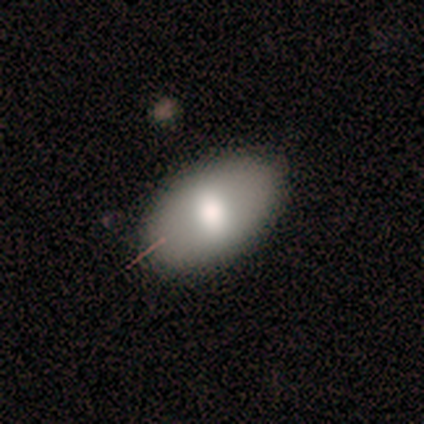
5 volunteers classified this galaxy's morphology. smooth_or_featured: smooth (p=1.00)
how_rounded: in between (p=0.80) [alt: cigar-shaped p=0.20]
merging: none (p=0.80) [alt: minor disturbance p=0.20]